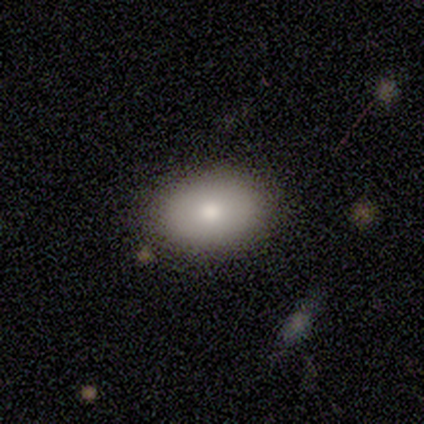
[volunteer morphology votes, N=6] Overall: smooth (67%; featured or disk 33%). How rounded: in between (100%). Merging: none (100%).